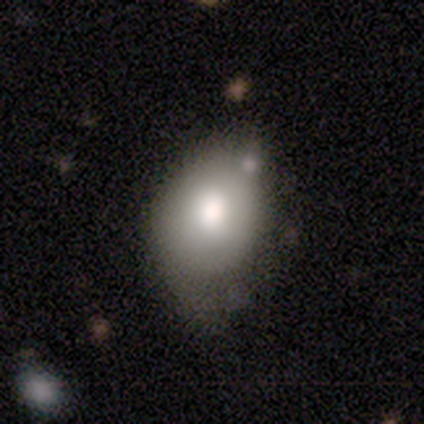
Smooth or featured: smooth — 65% (featured or disk — 27%)
How rounded: in between — 63% (round — 37%)
Merging: minor disturbance — 42% (none — 29%)